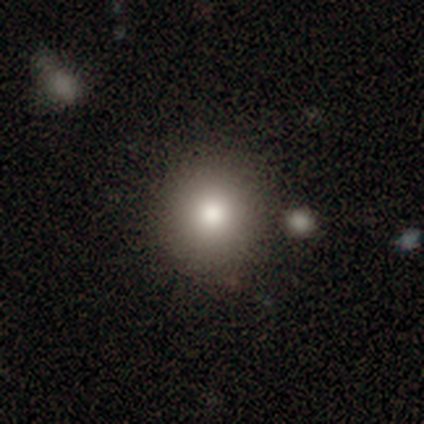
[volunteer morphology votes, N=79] Overall: smooth (77%). How rounded: round (93%). Merging: none (56%).